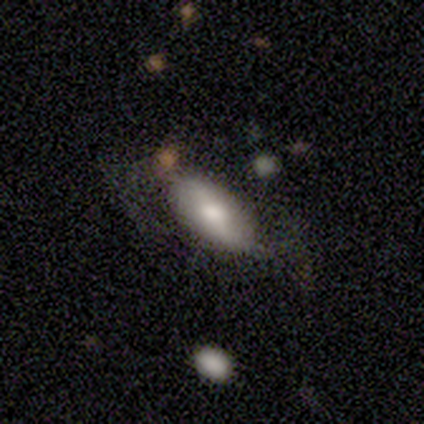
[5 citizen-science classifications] Smooth or featured? 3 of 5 (60%) said featured or disk. Edge-on disk? 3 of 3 (100%) said no. Bar? 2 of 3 (67%) said weak. Spiral arms? 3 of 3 (100%) said yes. Spiral winding? 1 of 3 (33%, tied with medium and loose) said tight. Spiral arm count? 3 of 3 (100%) said 2. Bulge size? 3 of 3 (100%) said moderate. Merging? 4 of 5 (80%) said none.